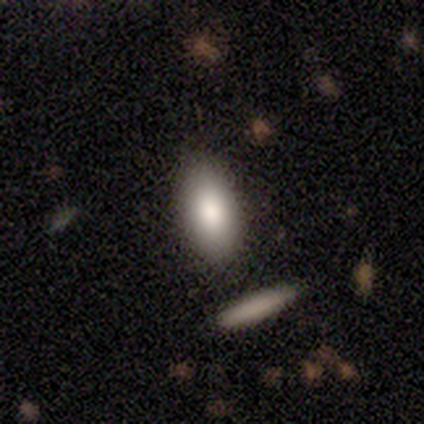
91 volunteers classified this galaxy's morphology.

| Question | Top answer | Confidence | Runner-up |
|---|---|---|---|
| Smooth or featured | smooth | 82% | featured or disk (13%) |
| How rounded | in between | 83% | cigar-shaped (13%) |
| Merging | none | 83% | minor disturbance (10%) |